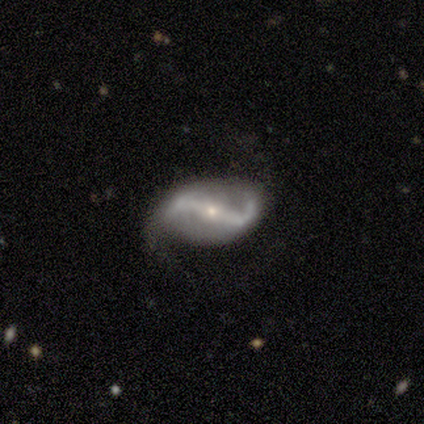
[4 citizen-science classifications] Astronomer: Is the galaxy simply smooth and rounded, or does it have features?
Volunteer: featured or disk — 100%.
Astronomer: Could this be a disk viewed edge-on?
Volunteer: no — 100%.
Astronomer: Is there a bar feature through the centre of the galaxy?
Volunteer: strong — 75%.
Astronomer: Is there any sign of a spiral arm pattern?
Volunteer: yes — 75%.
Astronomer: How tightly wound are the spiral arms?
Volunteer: loose — 67%.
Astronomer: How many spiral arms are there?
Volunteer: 2 — 67%.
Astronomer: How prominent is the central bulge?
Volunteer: small — 75%.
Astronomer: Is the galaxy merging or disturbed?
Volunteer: none — 50%.